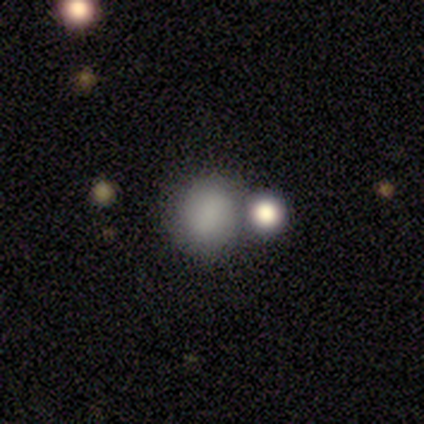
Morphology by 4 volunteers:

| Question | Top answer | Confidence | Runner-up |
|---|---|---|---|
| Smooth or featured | smooth | 75% | featured or disk (25%) |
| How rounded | round | 67% | in between (33%) |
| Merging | none | 50% | tied: merger (50%) |